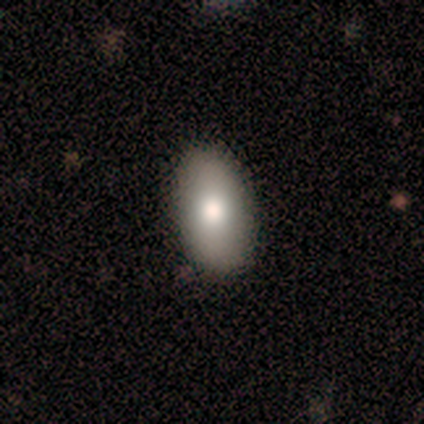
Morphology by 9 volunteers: smooth-or-featured: smooth: 78% | featured or disk: 22% | star or artifact: 0%
  how-rounded: in between: 86% | cigar-shaped: 14% | round: 0%
  merging: none: 89% | major disturbance: 11% | minor disturbance: 0% | merger: 0%